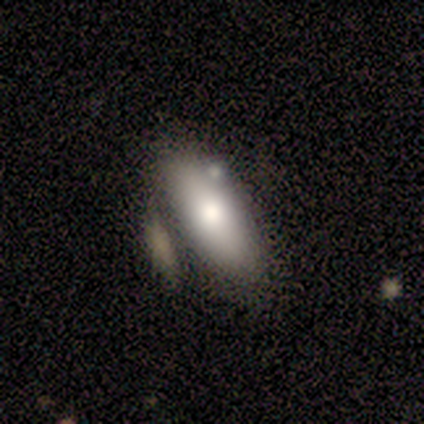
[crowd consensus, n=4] smooth 100%, featured or disk 0%, star or artifact 0%. Down the decision tree: how rounded — in between (75%); merging — none (75%).